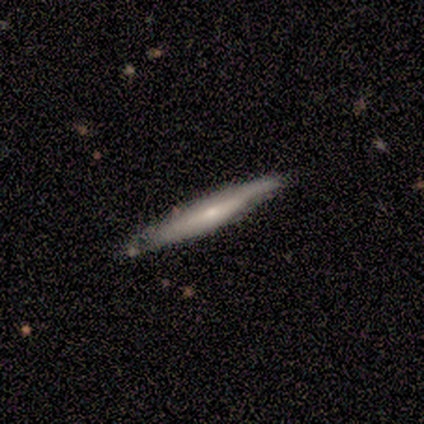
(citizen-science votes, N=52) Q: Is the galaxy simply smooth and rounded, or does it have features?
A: featured or disk — 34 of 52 (65%).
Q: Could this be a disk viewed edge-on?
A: yes — 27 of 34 (79%).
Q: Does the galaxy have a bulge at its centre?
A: rounded — 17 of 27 (63%).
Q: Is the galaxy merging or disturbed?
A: none — 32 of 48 (67%).